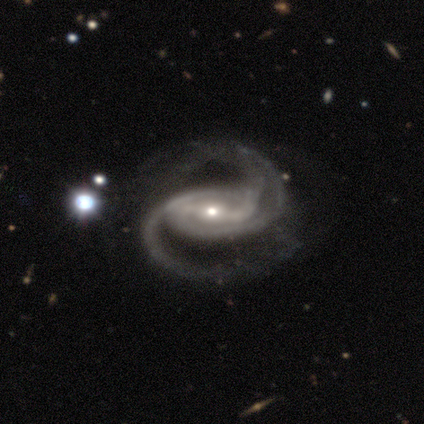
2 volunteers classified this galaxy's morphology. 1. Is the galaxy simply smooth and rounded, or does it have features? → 100% featured or disk, 0% smooth, 0% star or artifact.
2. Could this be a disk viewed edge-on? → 100% no, 0% yes.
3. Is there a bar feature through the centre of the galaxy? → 100% strong, 0% weak, 0% no.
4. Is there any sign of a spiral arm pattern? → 100% yes, 0% no.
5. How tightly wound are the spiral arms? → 100% tight, 0% medium, 0% loose.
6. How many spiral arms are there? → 50% 2 (tied), 50% can't tell (tied), 0% 1, 0% 3, 0% 4, 0% more than 4.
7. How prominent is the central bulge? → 100% moderate, 0% dominant, 0% large, 0% small, 0% none.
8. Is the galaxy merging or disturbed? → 50% none (tied), 50% major disturbance (tied), 0% minor disturbance, 0% merger.